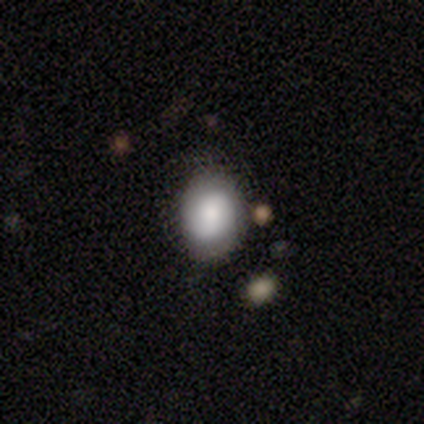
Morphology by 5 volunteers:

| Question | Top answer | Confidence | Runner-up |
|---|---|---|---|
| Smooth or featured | smooth | 100% | — |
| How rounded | in between | 80% | round (20%) |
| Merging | none | 40% | tied: minor disturbance (40%) |